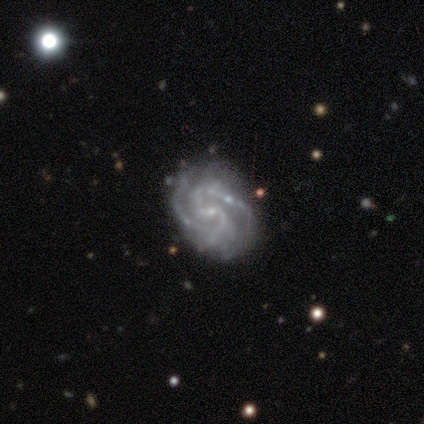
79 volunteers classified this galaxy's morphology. Q: Smooth or featured?
A: featured or disk (96%); runner-up: smooth (3%)
Q: Edge-on disk?
A: no (96%); runner-up: yes (4%)
Q: Bar?
A: weak (63%); runner-up: no (27%)
Q: Spiral arms?
A: yes (96%); runner-up: no (4%)
Q: Spiral winding?
A: medium (51%); runner-up: tight (37%)
Q: Spiral arm count?
A: 2 (73%); runner-up: 3 (16%)
Q: Bulge size?
A: small (78%); runner-up: none (12%)
Q: Merging?
A: none (33%); runner-up: minor disturbance (10%)